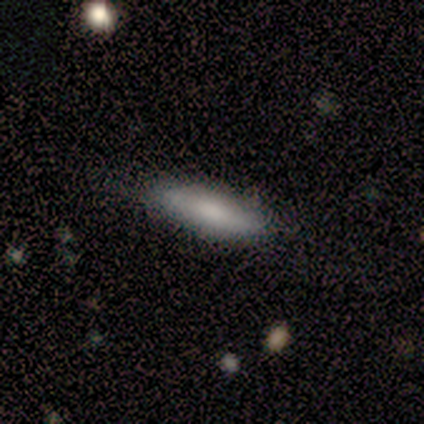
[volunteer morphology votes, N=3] smooth_or_featured: smooth (p=1.00)
how_rounded: in between (p=0.67) [alt: cigar-shaped p=0.33]
merging: none (p=1.00)